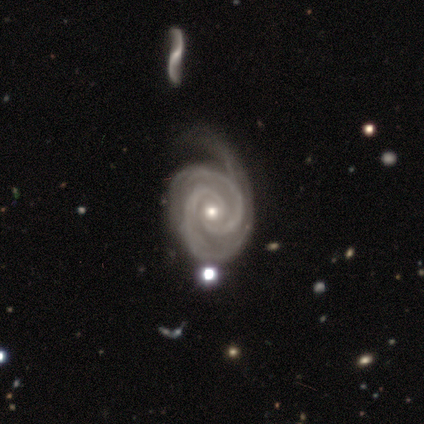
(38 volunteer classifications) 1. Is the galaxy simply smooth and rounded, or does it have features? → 100% featured or disk, 0% smooth, 0% star or artifact.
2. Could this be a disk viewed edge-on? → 100% no, 0% yes.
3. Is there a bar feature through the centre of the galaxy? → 84% no, 11% weak, 5% strong.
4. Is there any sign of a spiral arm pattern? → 97% yes, 3% no.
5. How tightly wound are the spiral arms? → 78% tight, 16% medium, 5% loose.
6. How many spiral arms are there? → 73% 2, 24% 3, 3% can't tell, 0% 1, 0% 4, 0% more than 4.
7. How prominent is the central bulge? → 47% small, 45% moderate, 5% none, 3% large, 0% dominant.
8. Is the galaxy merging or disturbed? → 18% none (tied), 18% major disturbance (tied), 16% minor disturbance, 11% merger.